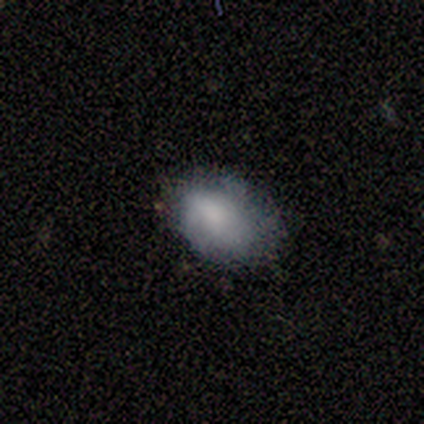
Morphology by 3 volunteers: A smooth galaxy with no disk features (67%) that is in between round and cigar-shaped (100%).

Vote fractions:
- Smooth or featured? smooth: 67% / featured or disk: 33% / star or artifact: 0%
- How rounded? in between: 100% / round: 0% / cigar-shaped: 0%
- Merging? none: 100% / minor disturbance: 0% / major disturbance: 0% / merger: 0%